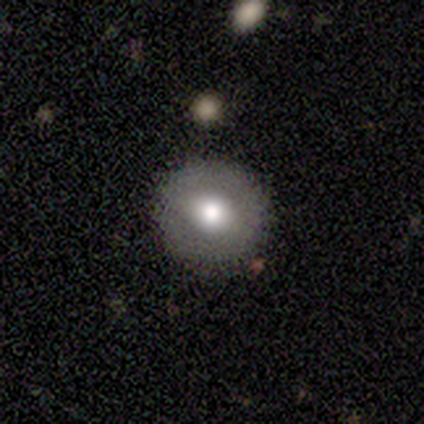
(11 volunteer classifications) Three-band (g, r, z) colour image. It shows a smooth galaxy with no disk features (73%) that is round (88%). Merging: none (100%).